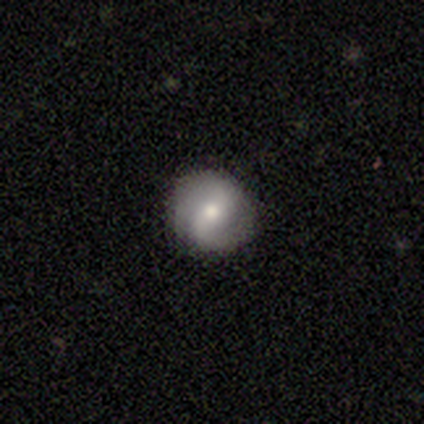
Smooth or featured?
  - featured or disk: 78% *
  - smooth: 18%
  - star or artifact: 5%
Edge-on disk?
  - no: 94% *
  - yes: 6%
Bar?
  - strong: 38% *
  - weak: 34%
  - no: 28%
Spiral arms?
  - yes: 86% *
  - no: 14%
Spiral winding?
  - medium: 40% *
  - loose: 32%
  - tight: 28%
Spiral arm count?
  - 2: 92% *
  - 1: 8%
  - 3: 0%
  - 4: 0%
  - more than 4: 0%
  - can't tell: 0%
Bulge size?
  - moderate: 59% *
  - small: 34%
  - large: 7%
  - dominant: 0%
  - none: 0%
Merging?
  - none: 100% *
  - minor disturbance: 0%
  - major disturbance: 0%
  - merger: 0%